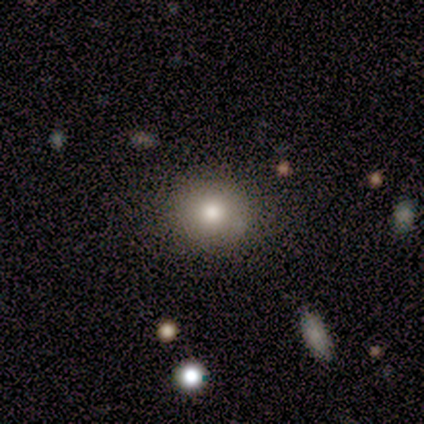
smooth 100%, featured or disk 0%, star or artifact 0%. Down the decision tree: how rounded — round (100%); merging — none (100%).